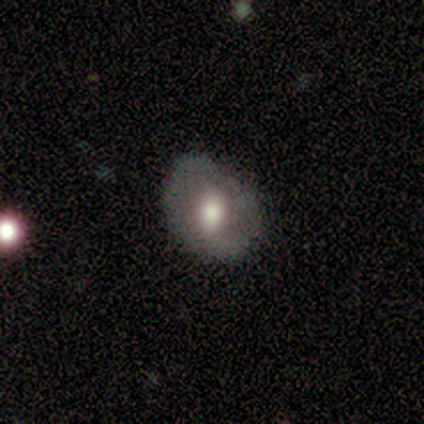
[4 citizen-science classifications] Smooth or featured?
  - smooth: 50% * (tied)
  - featured or disk: 50% * (tied)
  - star or artifact: 0%
How rounded?
  - round: 100% *
  - in between: 0%
  - cigar-shaped: 0%
Merging?
  - none: 50% *
  - minor disturbance: 25%
  - major disturbance: 25%
  - merger: 0%